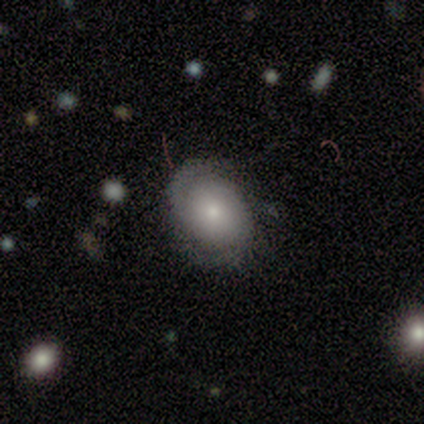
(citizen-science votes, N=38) Overall: smooth (50%; featured or disk 39%). How rounded: round (68%; in between 32%). Merging: none (59%; minor disturbance 32%).